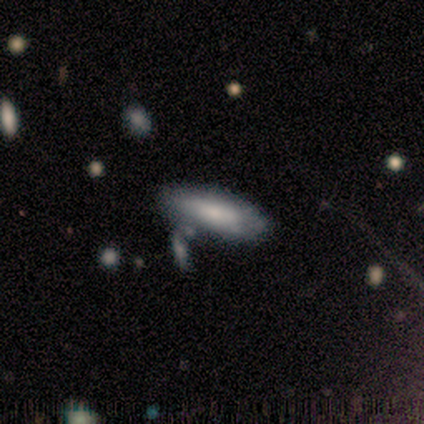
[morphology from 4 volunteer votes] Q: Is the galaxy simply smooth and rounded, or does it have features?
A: smooth — 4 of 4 (100%).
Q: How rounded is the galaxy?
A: in between — 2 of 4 (50%, tied with cigar-shaped).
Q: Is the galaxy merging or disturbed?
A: none — 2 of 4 (50%).